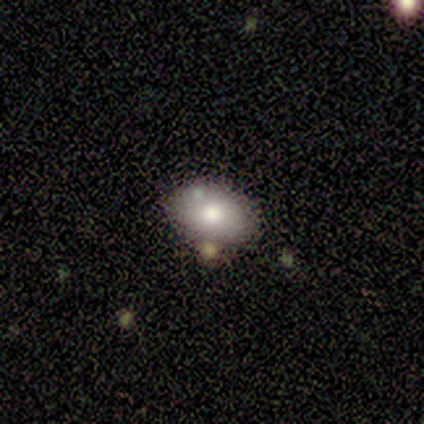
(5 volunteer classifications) Overall: smooth (80%). How rounded: in between (75%). Merging: none (50%; minor disturbance 25%).